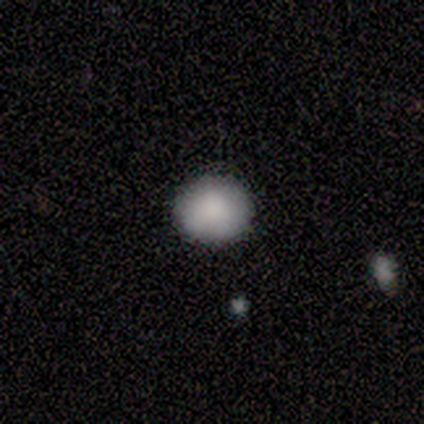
This appears to be a smooth galaxy with no disk features (75%) that is round (67%). Merging: none (75%).